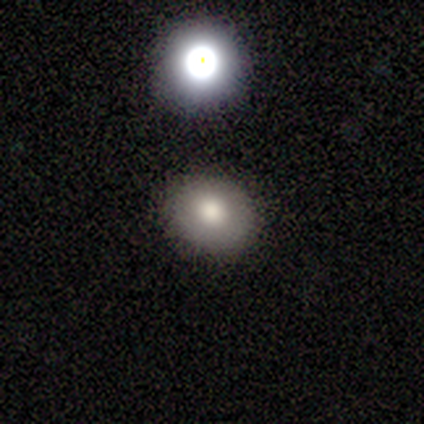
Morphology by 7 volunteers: Overall: smooth (71%). How rounded: round (60%; in between 40%). Merging: none (100%).